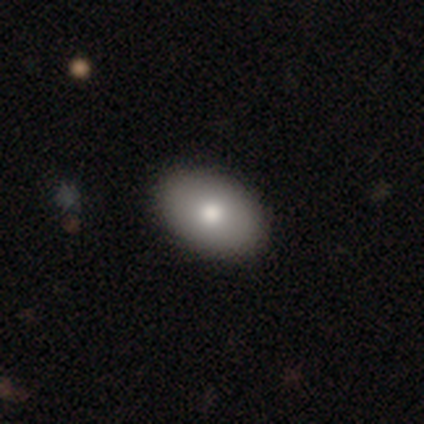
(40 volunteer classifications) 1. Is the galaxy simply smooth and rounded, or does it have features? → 75% smooth, 20% featured or disk, 5% star or artifact.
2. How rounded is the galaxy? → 97% in between, 3% round, 0% cigar-shaped.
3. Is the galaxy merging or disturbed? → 92% none, 8% minor disturbance, 0% major disturbance, 0% merger.